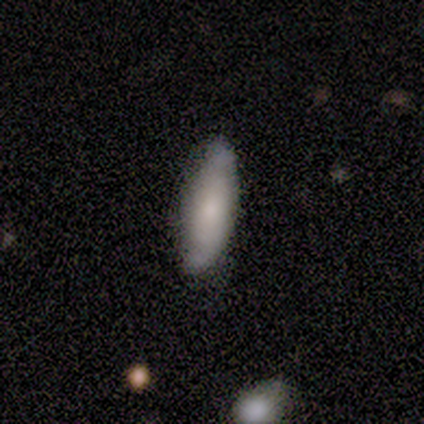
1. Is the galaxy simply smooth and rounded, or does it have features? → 50% smooth (tied), 50% featured or disk (tied), 0% star or artifact.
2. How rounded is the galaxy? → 50% in between (tied), 50% cigar-shaped (tied), 0% round.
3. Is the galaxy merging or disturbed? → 75% none, 25% minor disturbance, 0% major disturbance, 0% merger.